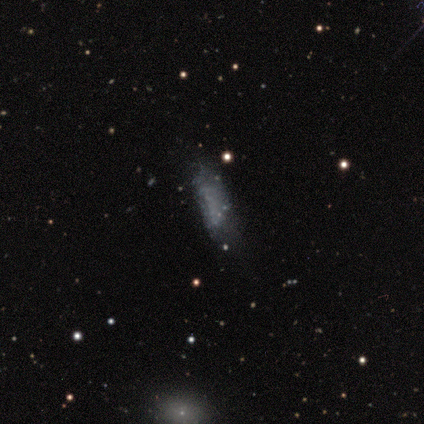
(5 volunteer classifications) star or artifact 80%, smooth 20%, featured or disk 0%.